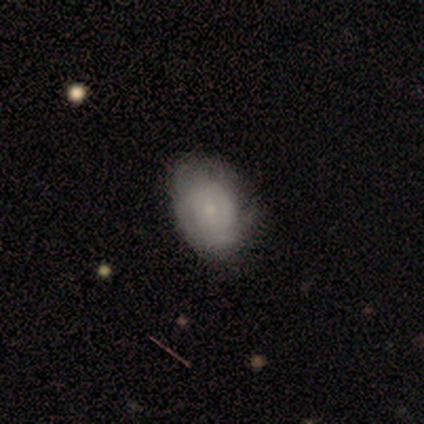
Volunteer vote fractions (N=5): featured or disk 60%, smooth 40%, star or artifact 0%. Down the decision tree: edge-on disk — no (100%); bar — no (100%); spiral arms — yes (100%); spiral arm count — can't tell (67%); spiral winding — tight (67%); bulge size — small (67%); merging — none (60%).